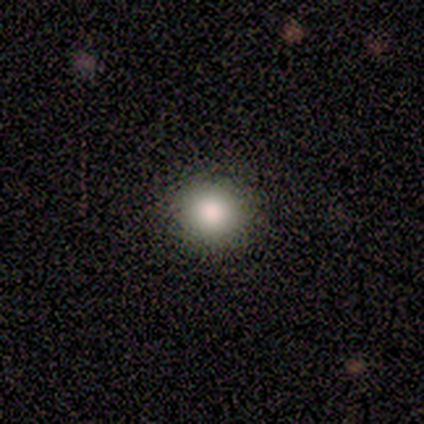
Smooth or featured? 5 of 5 (100%) said smooth. How rounded? 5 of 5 (100%) said round. Merging? 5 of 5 (100%) said none.